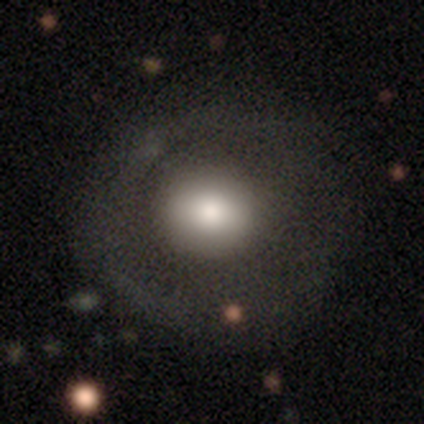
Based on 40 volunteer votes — Volunteers were most divided on "merging": none: 42%, minor disturbance: 16%, major disturbance: 5%, merger: 0%. More confident: how rounded — round (84%); smooth or featured — smooth (62%).